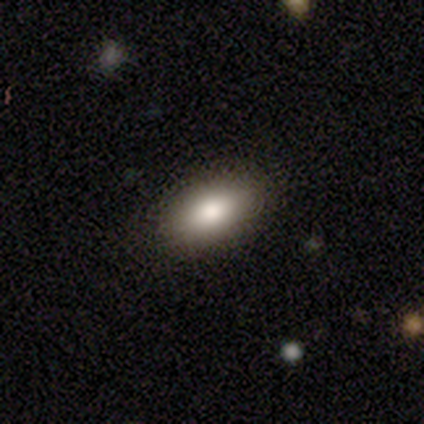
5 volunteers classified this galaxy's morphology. A smooth galaxy with no disk features (80%) that is in between round and cigar-shaped (100%). Merging: none (100%).